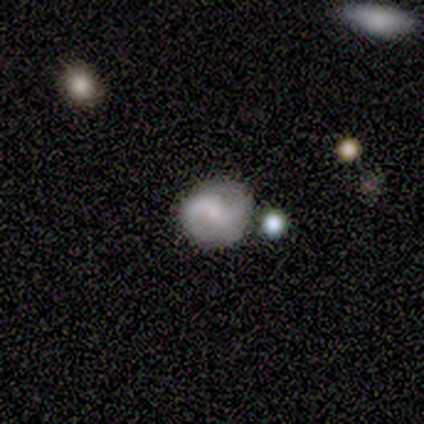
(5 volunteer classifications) Smooth or featured?
  - featured or disk: 60% *
  - smooth: 40%
  - star or artifact: 0%
Edge-on disk?
  - no: 100% *
  - yes: 0%
Bar?
  - strong: 33% * (tied)
  - weak: 33% * (tied)
  - no: 33% * (tied)
Spiral arms?
  - yes: 100% *
  - no: 0%
Spiral winding?
  - tight: 33% * (tied)
  - medium: 33% * (tied)
  - loose: 33% * (tied)
Spiral arm count?
  - 2: 100% *
  - 1: 0%
  - 3: 0%
  - 4: 0%
  - more than 4: 0%
  - can't tell: 0%
Bulge size?
  - moderate: 33% * (tied)
  - small: 33% * (tied)
  - none: 33% * (tied)
  - dominant: 0%
  - large: 0%
Merging?
  - none: 100% *
  - minor disturbance: 0%
  - major disturbance: 0%
  - merger: 0%